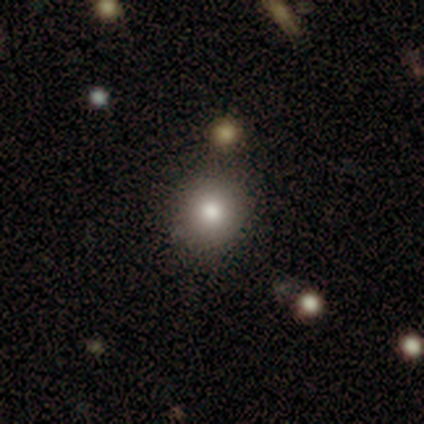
A smooth galaxy with no disk features (100%) that is round (100%).

Vote fractions:
- Smooth or featured? smooth: 100% / featured or disk: 0% / star or artifact: 0%
- How rounded? round: 100% / in between: 0% / cigar-shaped: 0%
- Merging? none: 100% / minor disturbance: 0% / major disturbance: 0% / merger: 0%